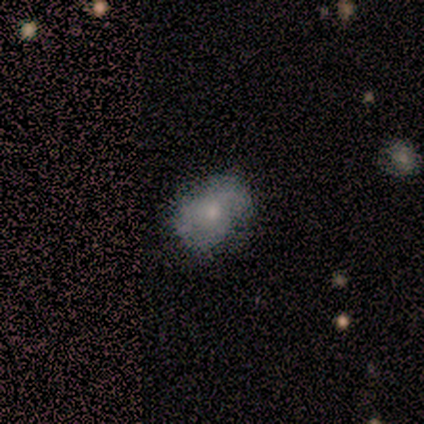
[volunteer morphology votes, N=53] Smooth or featured?
  - featured or disk: 51% *
  - smooth: 45%
  - star or artifact: 4%
Edge-on disk?
  - no: 100% *
  - yes: 0%
Bar?
  - no: 85% *
  - weak: 15%
  - strong: 0%
Spiral arms?
  - no: 52% *
  - yes: 48%
Bulge size?
  - small: 48% *
  - moderate: 41%
  - large: 7%
  - none: 4%
  - dominant: 0%
Merging?
  - none: 61% *
  - minor disturbance: 33%
  - major disturbance: 6%
  - merger: 0%